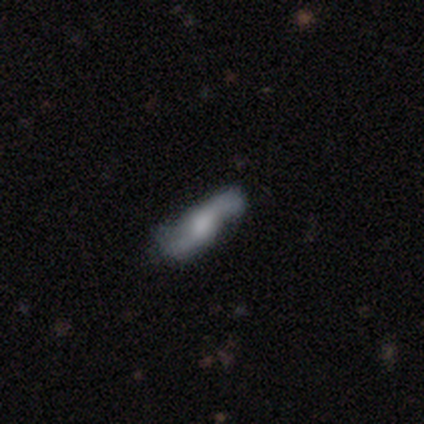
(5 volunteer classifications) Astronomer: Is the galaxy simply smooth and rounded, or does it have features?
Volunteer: featured or disk — 60% (runner-up: smooth, 40%).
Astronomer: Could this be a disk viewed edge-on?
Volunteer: no — 67%.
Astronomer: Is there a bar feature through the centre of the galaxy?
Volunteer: weak — 100%.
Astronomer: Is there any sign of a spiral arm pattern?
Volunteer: yes — 100%.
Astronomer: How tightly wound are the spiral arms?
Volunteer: medium — 50%, tied with loose at 50%.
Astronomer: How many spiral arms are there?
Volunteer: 2 — 50%, tied with can't tell at 50%.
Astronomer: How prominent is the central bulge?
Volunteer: moderate — 50%, tied with small at 50%.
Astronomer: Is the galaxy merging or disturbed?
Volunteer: none — 60% (runner-up: major disturbance, 40%).